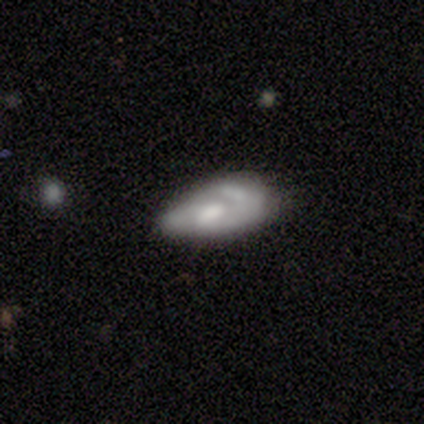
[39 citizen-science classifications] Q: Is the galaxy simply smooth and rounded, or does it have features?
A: featured or disk — 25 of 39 (64%).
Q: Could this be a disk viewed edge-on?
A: no — 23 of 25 (92%).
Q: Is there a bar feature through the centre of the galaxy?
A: no — 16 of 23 (70%).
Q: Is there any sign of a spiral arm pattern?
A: no — 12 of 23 (52%).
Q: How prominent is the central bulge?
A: moderate — 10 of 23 (43%).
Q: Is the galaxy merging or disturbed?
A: minor disturbance — 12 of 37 (32%).